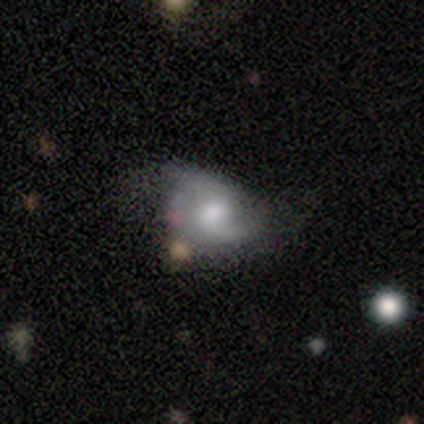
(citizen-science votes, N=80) Smooth or featured: featured or disk — 75% (smooth — 16%)
Edge-on disk: no — 100%
Bar: no — 58% (weak — 40%)
Spiral arms: yes — 92% (no — 8%)
Spiral winding: loose — 67% (medium — 27%)
Spiral arm count: 2 — 85% (1 — 11%)
Bulge size: moderate — 48% (large — 25%)
Merging: none — 29% (minor disturbance — 14%)